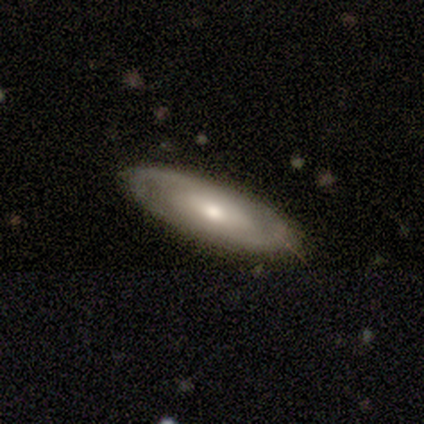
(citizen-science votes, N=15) A featured or disk galaxy (73%) with no bar (90%), 2 (86%) tight (71%) spiral arms (70%) and a moderate central bulge (60%).

Vote fractions:
- Smooth or featured? featured or disk: 73% / smooth: 27% / star or artifact: 0%
- Edge-on disk? no: 91% / yes: 9%
- Bar? no: 90% / strong: 10% / weak: 0%
- Spiral arms? yes: 70% / no: 30%
- Spiral winding? tight: 71% / medium: 14% / loose: 14%
- Spiral arm count? 2: 86% / can't tell: 14% / 1: 0% / 3: 0% / 4: 0% / more than 4: 0%
- Bulge size? moderate: 60% / small: 40% / dominant: 0% / large: 0% / none: 0%
- Merging? none: 100% / minor disturbance: 0% / major disturbance: 0% / merger: 0%